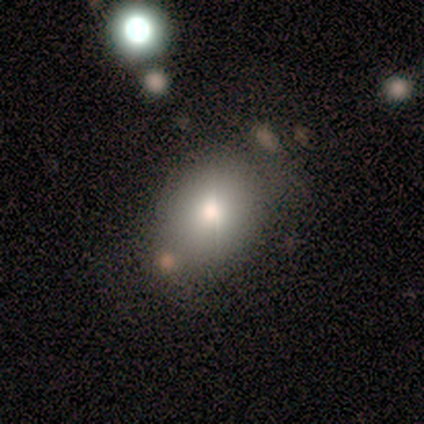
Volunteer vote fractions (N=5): Volunteers were most divided on "how rounded" (2-way tie): round: 50%, in between: 50%, cigar-shaped: 0%. More confident: smooth or featured — smooth (80%); merging — none (50%).